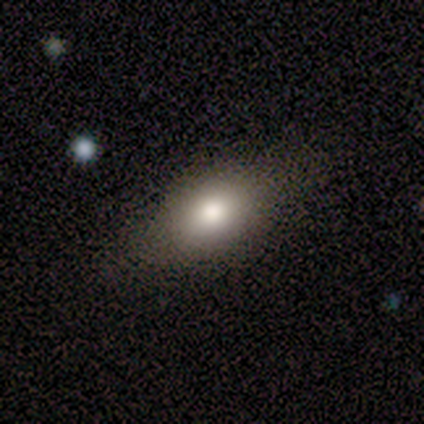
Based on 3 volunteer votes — Smooth or featured: smooth — 67% (featured or disk — 33%)
How rounded: in between — 50% (tied with cigar-shaped — 50%)
Merging: none — 100%